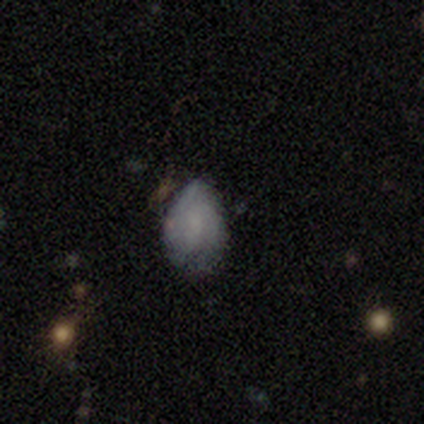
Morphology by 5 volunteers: type=smooth (60%); roundness=in between (67%); merging=none (100%).